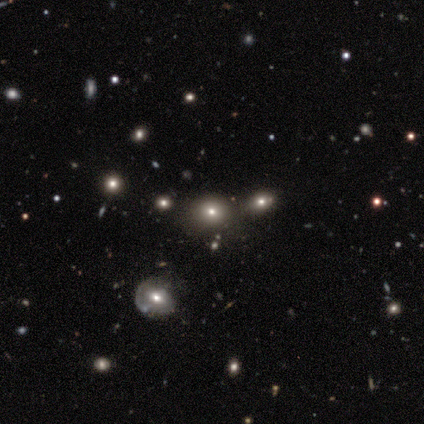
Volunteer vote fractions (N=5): smooth_or_featured: smooth (p=0.40) [tied with: star or artifact p=0.40]
how_rounded: round (p=1.00)
merging: none (p=1.00)